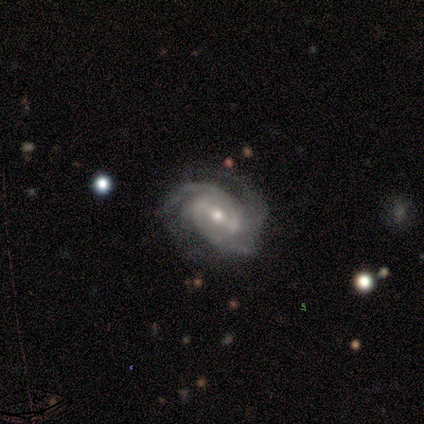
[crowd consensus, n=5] A featured or disk galaxy (100%) with a strong bar (40%, tied with weak), 3 (60%) medium (60%) spiral arms (100%) and a moderate central bulge (100%). Merging: none (80%).